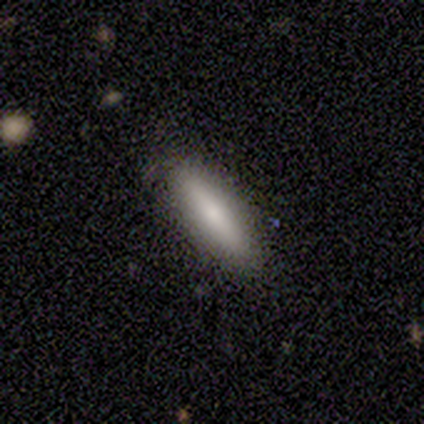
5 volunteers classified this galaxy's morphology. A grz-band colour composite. It shows a smooth galaxy with no disk features (80%) that is cigar-shaped (75%). Merging: none (80%).